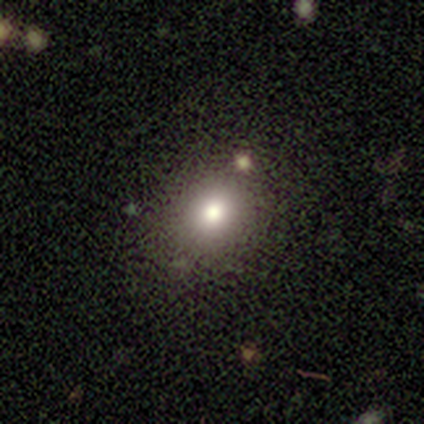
Volunteers were most divided on "how rounded" (2-way tie): round: 50%, in between: 50%, cigar-shaped: 0%. More confident: merging — none (74%); smooth or featured — smooth (67%).